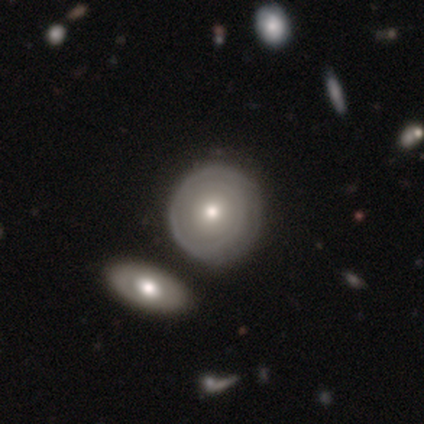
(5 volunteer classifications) A featured or disk galaxy (60%) with no bar (67%), tight (100%) spiral arms (67%) and a moderate central bulge (67%).

Vote fractions:
- Smooth or featured? featured or disk: 60% / smooth: 20% / star or artifact: 20%
- Edge-on disk? no: 100% / yes: 0%
- Bar? no: 67% / weak: 33% / strong: 0%
- Spiral arms? yes: 67% / no: 33%
- Spiral winding? tight: 100% / medium: 0% / loose: 0%
- Spiral arm count? can't tell: 100% / 1: 0% / 2: 0% / 3: 0% / 4: 0% / more than 4: 0%
- Bulge size? moderate: 67% / small: 33% / dominant: 0% / large: 0% / none: 0%
- Merging? none: 75% / major disturbance: 25% / minor disturbance: 0% / merger: 0%